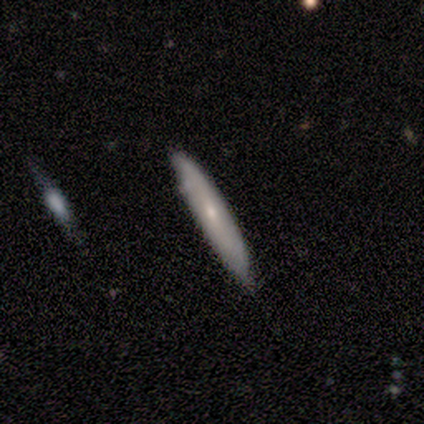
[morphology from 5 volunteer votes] This appears to be a smooth galaxy with no disk features (60%) that is cigar-shaped (67%). Merging: none (60%).